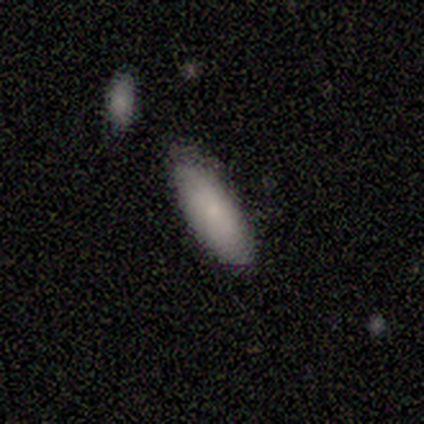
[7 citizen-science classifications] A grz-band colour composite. It shows a smooth galaxy with no disk features (71%) that is in between round and cigar-shaped (80%). Merging: none (83%).